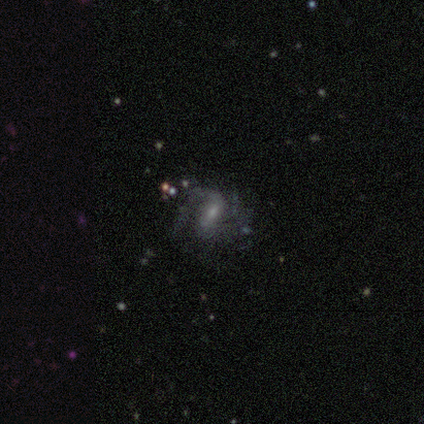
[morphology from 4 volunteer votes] Smooth or featured? 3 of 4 (75%) said featured or disk. Edge-on disk? 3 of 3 (100%) said no. Bar? 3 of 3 (100%) said weak. Spiral arms? 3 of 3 (100%) said yes. Spiral winding? 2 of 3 (67%) said medium. Spiral arm count? 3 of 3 (100%) said 2. Bulge size? 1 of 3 (33%, tied with small and none) said moderate. Merging? 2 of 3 (67%) said none.